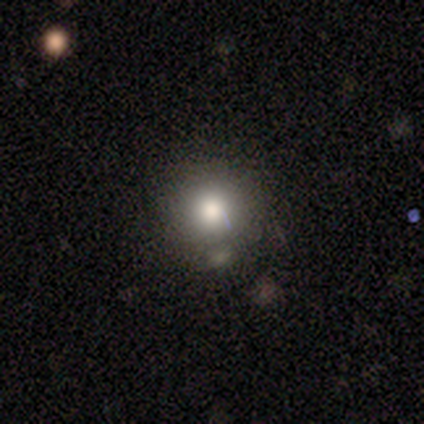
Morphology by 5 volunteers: Smooth or featured? smooth (100%)
How rounded? round (100%)
Merging? none (100%)